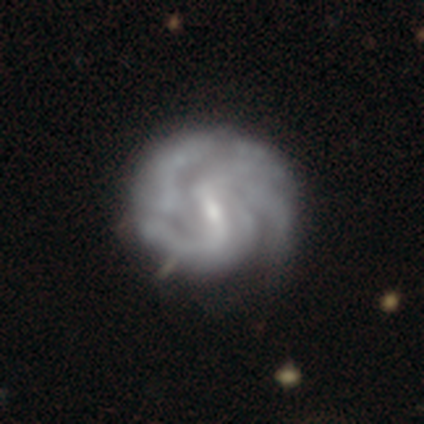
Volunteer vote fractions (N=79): Volunteers were most divided on "spiral winding": medium: 48%, tight: 32%, loose: 20%. Remaining: edge-on disk — no (99%); spiral arms — yes (93%); smooth or featured — featured or disk (90%); bulge size — small (61%); bar — weak (54%); spiral arm count — can't tell (48%); merging — none (32%).